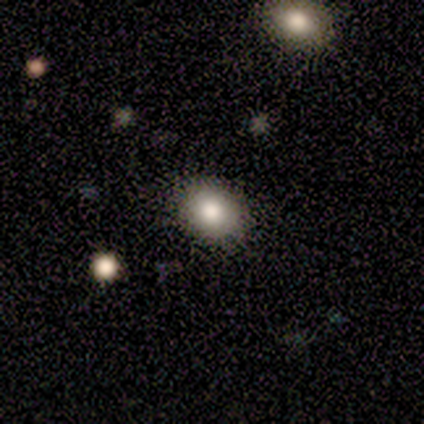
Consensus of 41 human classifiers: Smooth or featured: smooth — 90% (featured or disk — 5%)
How rounded: in between — 57% (round — 43%)
Merging: none — 87% (minor disturbance — 8%)